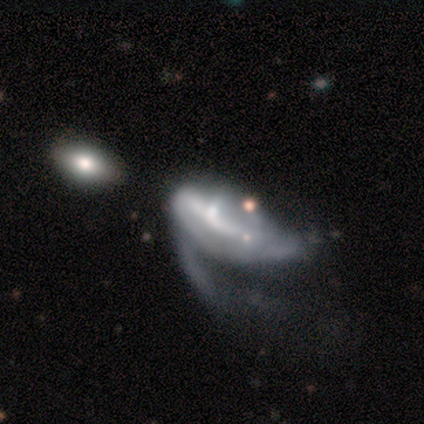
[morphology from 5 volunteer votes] A featured or disk galaxy (80%) with a weak bar (50%), 1 (50%, tied with can't tell) loose (100%) spiral arms (50%, tied with no) and a moderate central bulge (50%).

Vote fractions:
- Smooth or featured? featured or disk: 80% / smooth: 20% / star or artifact: 0%
- Edge-on disk? no: 100% / yes: 0%
- Bar? weak: 50% / strong: 25% / no: 25%
- Spiral arms? yes: 50% (tied) / no: 50% (tied)
- Spiral winding? loose: 100% / tight: 0% / medium: 0%
- Spiral arm count? 1: 50% (tied) / can't tell: 50% (tied) / 2: 0% / 3: 0% / 4: 0% / more than 4: 0%
- Bulge size? moderate: 50% / small: 25% / none: 25% / dominant: 0% / large: 0%
- Merging? major disturbance: 80% / merger: 20% / none: 0% / minor disturbance: 0%